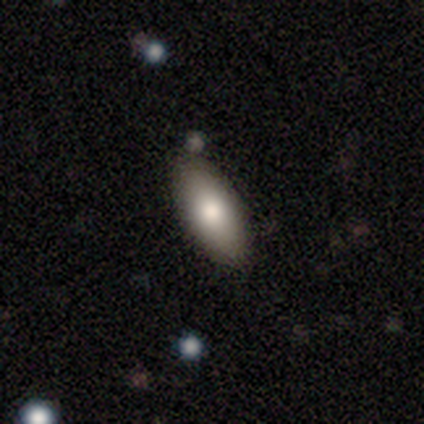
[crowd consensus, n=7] Morphology: type=smooth (100%); roundness=in between (71%); merging=none (71%).